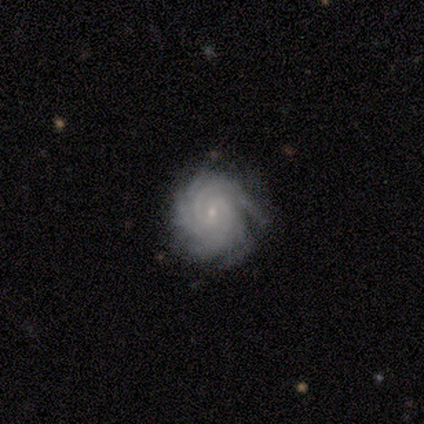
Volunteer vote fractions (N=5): A featured or disk galaxy (100%) with no bar (75%), more than 4 (75%) tight (100%) spiral arms (100%) and a small central bulge (100%).

Vote fractions:
- Smooth or featured? featured or disk: 100% / smooth: 0% / star or artifact: 0%
- Edge-on disk? no: 80% / yes: 20%
- Bar? no: 75% / strong: 25% / weak: 0%
- Spiral arms? yes: 100% / no: 0%
- Spiral winding? tight: 100% / medium: 0% / loose: 0%
- Spiral arm count? more than 4: 75% / 4: 25% / 1: 0% / 2: 0% / 3: 0% / can't tell: 0%
- Bulge size? small: 100% / dominant: 0% / large: 0% / moderate: 0% / none: 0%
- Merging? none: 100% / minor disturbance: 0% / major disturbance: 0% / merger: 0%